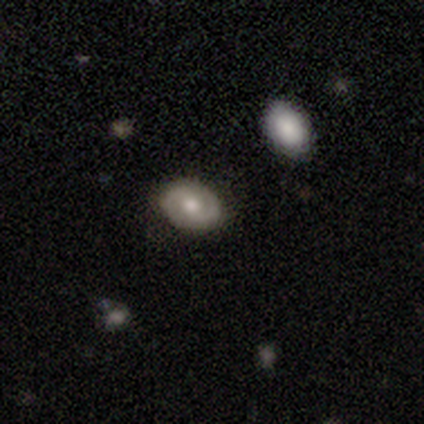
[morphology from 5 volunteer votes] This appears to be a smooth galaxy with no disk features (60%) that is in between round and cigar-shaped (100%). Merging: none (100%).